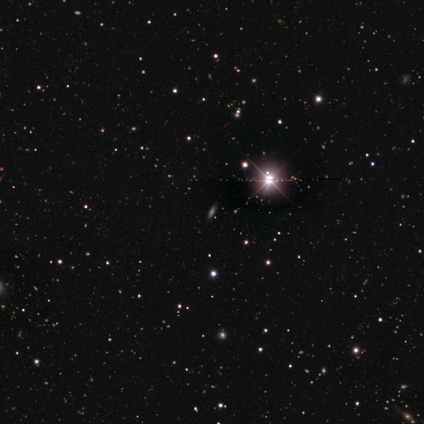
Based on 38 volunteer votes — A star or artifact, not a galaxy (71%).